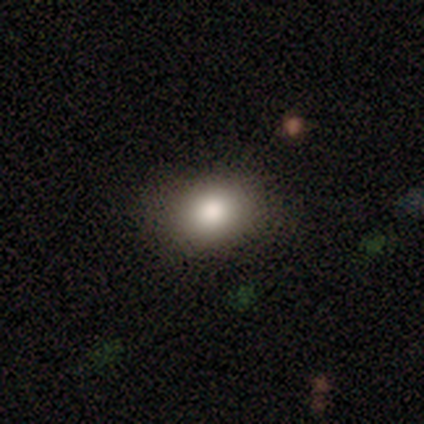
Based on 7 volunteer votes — Overall: smooth (71%). How rounded: in between (60%; round 40%). Merging: none (100%).